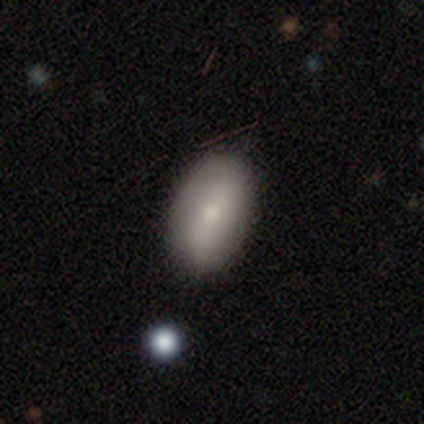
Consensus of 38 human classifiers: Smooth or featured? 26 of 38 (68%) said smooth. How rounded? 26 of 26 (100%) said in between. Merging? 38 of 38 (100%) said none.